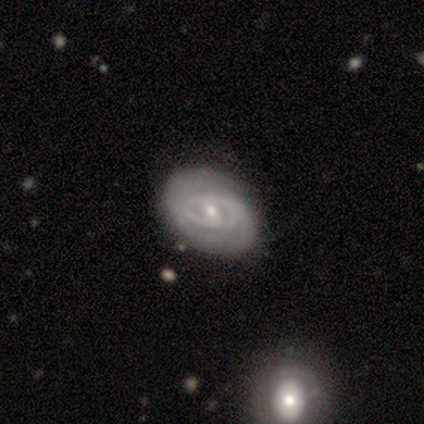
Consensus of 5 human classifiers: Smooth or featured?
  - featured or disk: 100% *
  - smooth: 0%
  - star or artifact: 0%
Edge-on disk?
  - no: 100% *
  - yes: 0%
Bar?
  - no: 60% *
  - strong: 20%
  - weak: 20%
Spiral arms?
  - yes: 100% *
  - no: 0%
Spiral winding?
  - tight: 80% *
  - medium: 20%
  - loose: 0%
Spiral arm count?
  - 2: 40% * (tied)
  - can't tell: 40% * (tied)
  - 3: 20%
  - 1: 0%
  - 4: 0%
  - more than 4: 0%
Bulge size?
  - small: 60% *
  - moderate: 40%
  - dominant: 0%
  - large: 0%
  - none: 0%
Merging?
  - none: 80% *
  - minor disturbance: 20%
  - major disturbance: 0%
  - merger: 0%